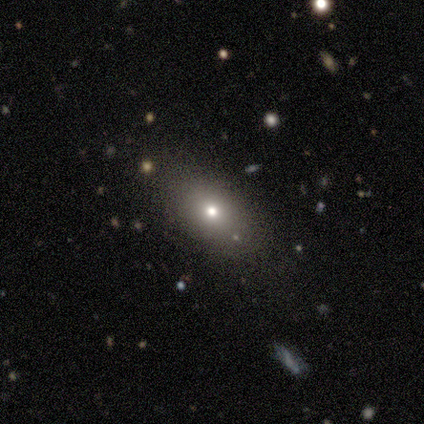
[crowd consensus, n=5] Smooth or featured?
  - smooth: 80% *
  - star or artifact: 20%
  - featured or disk: 0%
How rounded?
  - in between: 75% *
  - round: 25%
  - cigar-shaped: 0%
Merging?
  - none: 100% *
  - minor disturbance: 0%
  - major disturbance: 0%
  - merger: 0%